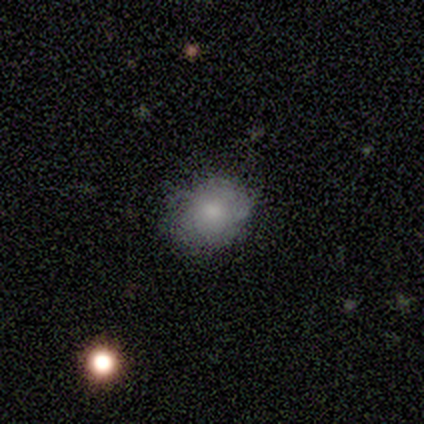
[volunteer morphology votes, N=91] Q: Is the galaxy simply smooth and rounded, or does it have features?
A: smooth — 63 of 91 (69%).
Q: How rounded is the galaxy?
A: in between — 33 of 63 (52%).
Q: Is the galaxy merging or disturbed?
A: none — 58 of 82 (71%).